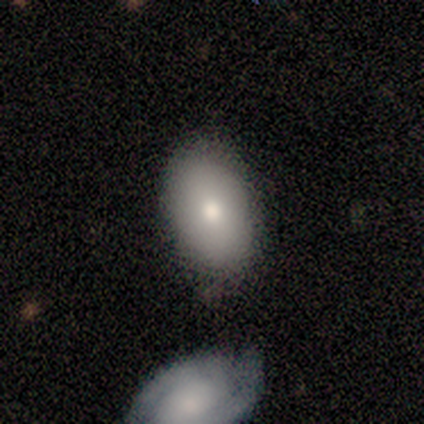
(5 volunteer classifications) Smooth or featured? smooth (100%)
How rounded? in between (100%)
Merging? none (40%, tied with minor disturbance)